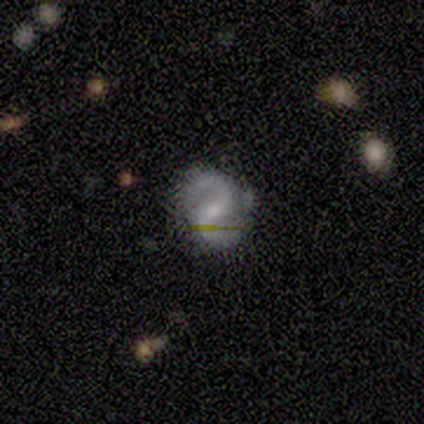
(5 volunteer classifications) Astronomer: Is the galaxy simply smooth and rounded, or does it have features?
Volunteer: featured or disk — 60%.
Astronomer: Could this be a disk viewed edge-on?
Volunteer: no — 100%.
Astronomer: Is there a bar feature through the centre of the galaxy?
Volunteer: weak — 100%.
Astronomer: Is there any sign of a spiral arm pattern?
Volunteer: yes — 100%.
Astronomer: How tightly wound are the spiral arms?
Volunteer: medium — 67%.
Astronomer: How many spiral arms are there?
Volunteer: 2 — 100%.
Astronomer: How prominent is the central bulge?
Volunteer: small — 67%.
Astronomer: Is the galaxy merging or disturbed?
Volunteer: none — 75%.